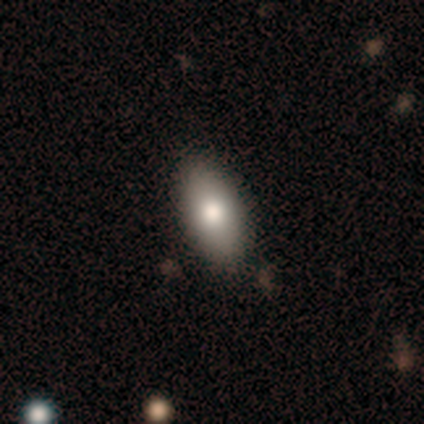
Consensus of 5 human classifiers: Overall: smooth (100%). How rounded: in between (80%). Merging: none (100%).